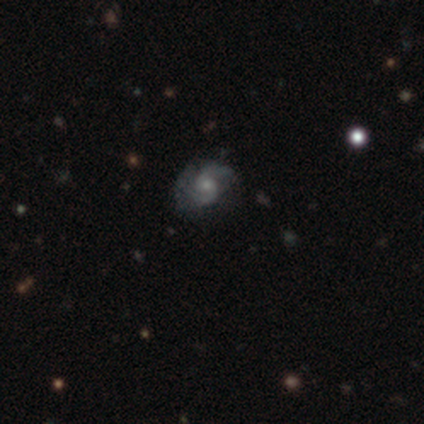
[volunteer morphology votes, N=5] type=featured or disk (100%); edge-on=no (100%); bar=no (100%); spiral arms=yes (100%); winding=medium (60%); arm count=2 (100%); bulge=small (60%); merging=none (40%, tied with minor disturbance).